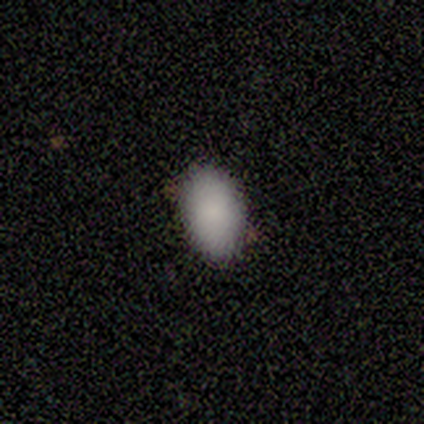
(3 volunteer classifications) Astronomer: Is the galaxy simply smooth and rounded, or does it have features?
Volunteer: smooth — 100%.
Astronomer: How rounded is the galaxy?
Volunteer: in between — 100%.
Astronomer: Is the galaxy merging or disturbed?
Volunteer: none — 67%.